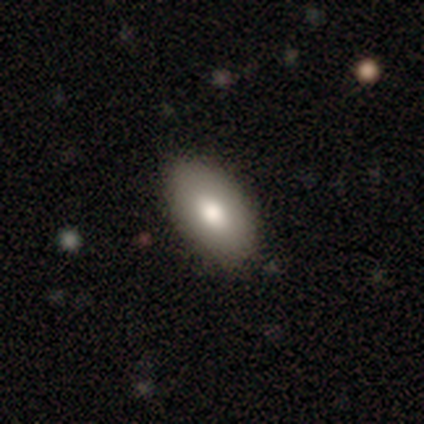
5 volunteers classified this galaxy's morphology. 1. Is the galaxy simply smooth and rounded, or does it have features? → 100% smooth, 0% featured or disk, 0% star or artifact.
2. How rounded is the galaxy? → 80% in between, 20% round, 0% cigar-shaped.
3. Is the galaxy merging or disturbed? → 100% none, 0% minor disturbance, 0% major disturbance, 0% merger.